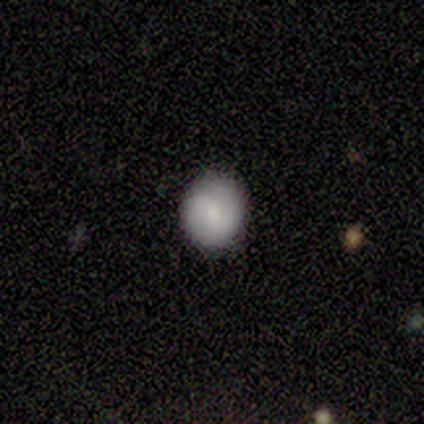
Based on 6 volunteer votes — Smooth or featured? featured or disk (67%)
Edge-on disk? no (100%)
Bar? weak (100%)
Spiral arms? yes (100%)
Spiral winding? medium (50%)
Spiral arm count? 2 (100%)
Bulge size? small (75%)
Merging? none (100%)